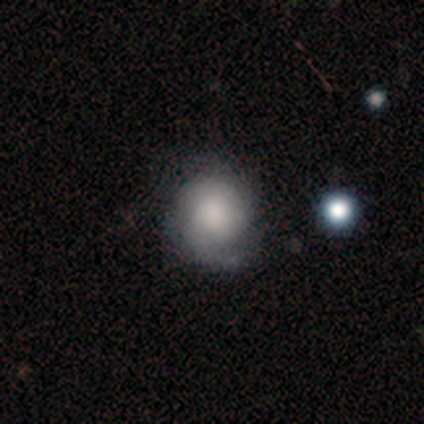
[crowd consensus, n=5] Volunteers were most divided on "bulge size" (3-way tie): dominant: 33%, large: 33%, none: 33%, moderate: 0%, small: 0%. More confident: edge-on disk — no (100%); bar — no (100%); spiral arms — yes (100%); spiral winding — medium (67%); spiral arm count — 2 (67%); smooth or featured — featured or disk (60%); merging — minor disturbance (60%).